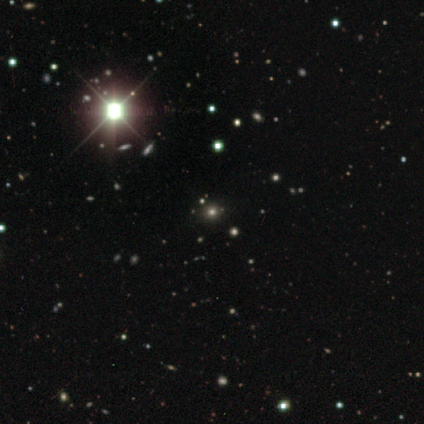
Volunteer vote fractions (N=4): Morphology: type=smooth (50%, tied with star or artifact); roundness=round (100%); merging=none (100%).